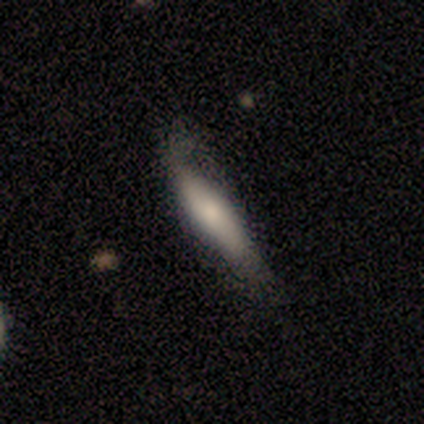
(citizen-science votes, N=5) smooth-or-featured: smooth: 60% | featured or disk: 40% | star or artifact: 0%
  how-rounded: cigar-shaped: 67% | round: 33% | in between: 0%
  merging: none: 80% | minor disturbance: 20% | major disturbance: 0% | merger: 0%